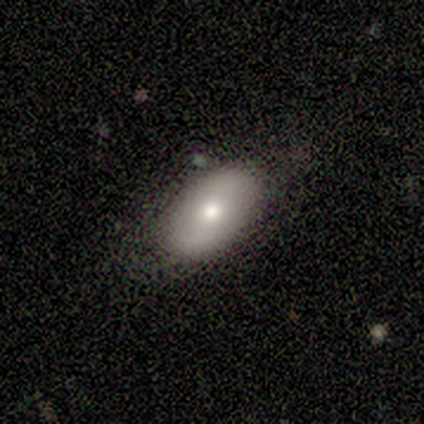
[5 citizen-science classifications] Q: Smooth or featured?
A: smooth (80%); runner-up: featured or disk (20%)
Q: How rounded?
A: in between (75%); runner-up: round (25%)
Q: Merging?
A: none (80%); runner-up: minor disturbance (20%)